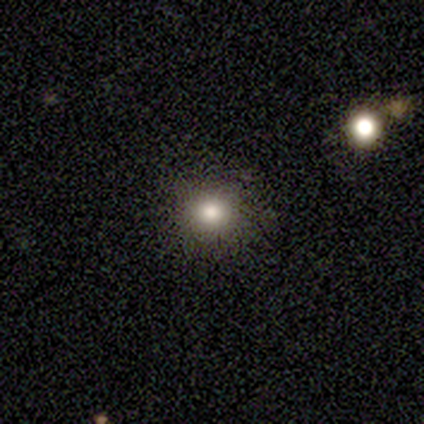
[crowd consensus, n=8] This appears to be a smooth galaxy with no disk features (62%) that is round (100%). Merging: none (83%).